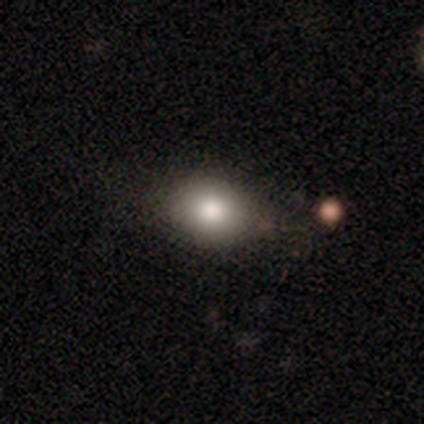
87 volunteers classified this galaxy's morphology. Smooth or featured? 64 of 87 (74%) said smooth. How rounded? 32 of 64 (50%, tied with in between) said round. Merging? 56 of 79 (71%) said none.